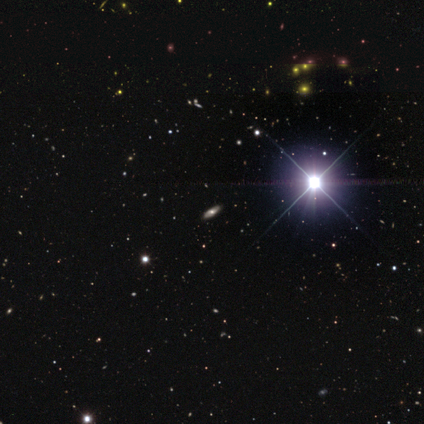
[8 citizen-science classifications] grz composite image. It shows a star or artifact, not a galaxy (50%).